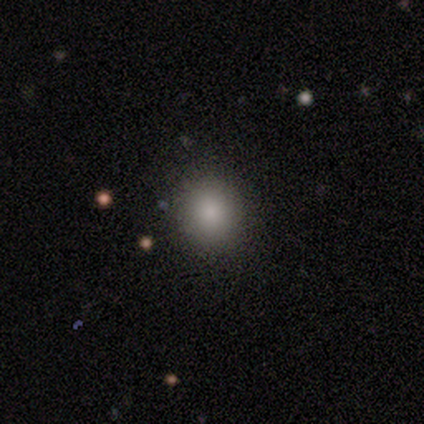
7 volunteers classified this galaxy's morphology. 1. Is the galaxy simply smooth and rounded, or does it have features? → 43% smooth (tied), 43% star or artifact (tied), 14% featured or disk.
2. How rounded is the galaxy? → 100% round, 0% in between, 0% cigar-shaped.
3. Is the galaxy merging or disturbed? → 100% none, 0% minor disturbance, 0% major disturbance, 0% merger.